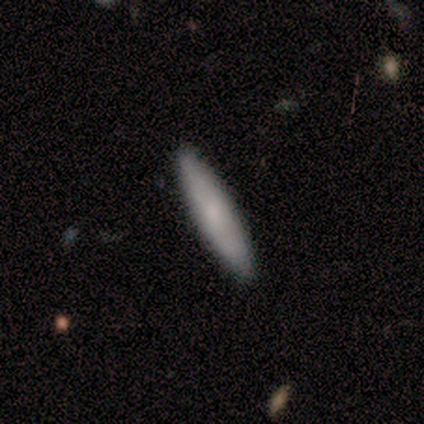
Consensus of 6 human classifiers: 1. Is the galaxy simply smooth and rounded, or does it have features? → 67% smooth, 17% featured or disk, 17% star or artifact.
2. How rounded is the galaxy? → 75% cigar-shaped, 25% in between, 0% round.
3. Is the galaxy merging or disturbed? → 100% none, 0% minor disturbance, 0% major disturbance, 0% merger.